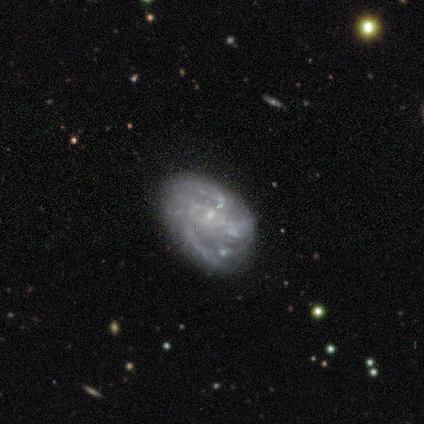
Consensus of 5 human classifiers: smooth_or_featured: featured or disk (p=1.00)
disk_edge_on: no (p=1.00)
bar: no (p=0.80) [alt: weak p=0.20]
has_spiral_arms: yes (p=0.80) [alt: no p=0.20]
spiral_winding: loose (p=0.75) [alt: medium p=0.25]
spiral_arm_count: can't tell (p=0.75) [alt: 2 p=0.25]
bulge_size: small (p=1.00)
merging: none (p=0.60) [alt: minor disturbance p=0.20]